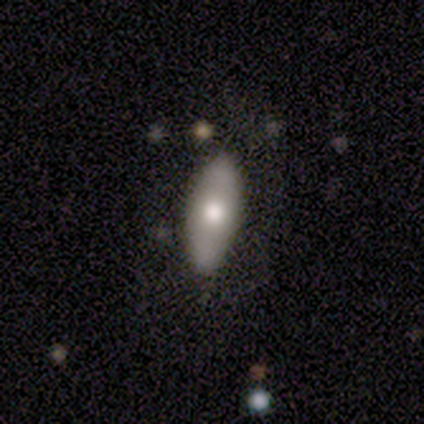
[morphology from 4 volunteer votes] smooth-or-featured: featured or disk: 75% | smooth: 25% | star or artifact: 0%
  disk-edge-on: yes: 67% | no: 33%
    edge-on-bulge: rounded: 100% | boxy: 0% | none: 0%
  merging: none: 100% | minor disturbance: 0% | major disturbance: 0% | merger: 0%